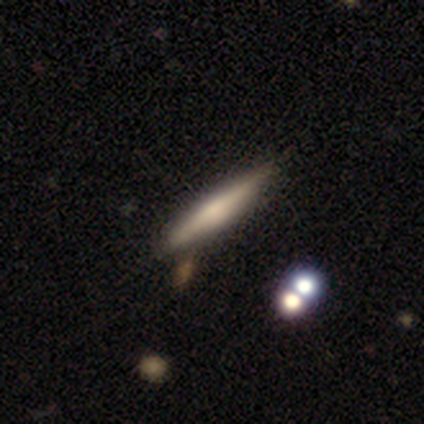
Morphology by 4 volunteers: smooth 50% (tied), featured or disk 50% (tied), star or artifact 0%. Down the decision tree: how rounded — cigar-shaped (100%); merging — none (75%).